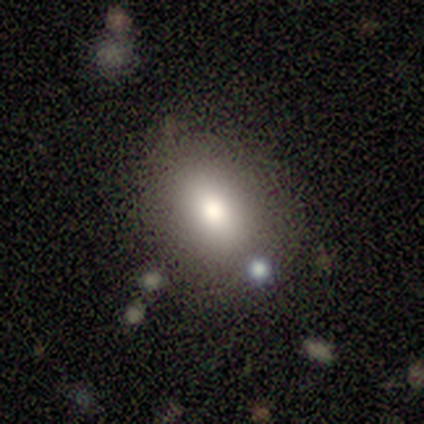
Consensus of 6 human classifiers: smooth 83%, featured or disk 17%, star or artifact 0%. Down the decision tree: how rounded — in between (80%); merging — none (50%, tied with minor disturbance).